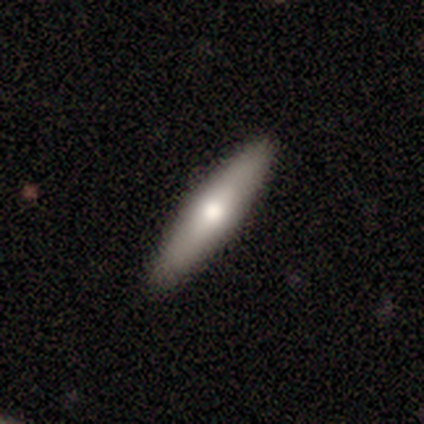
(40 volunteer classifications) Smooth or featured? smooth (60%)
How rounded? cigar-shaped (92%)
Merging? none (90%)